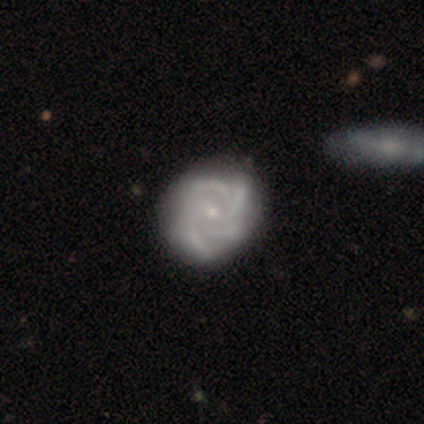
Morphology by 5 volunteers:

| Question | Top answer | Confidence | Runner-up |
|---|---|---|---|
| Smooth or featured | featured or disk | 100% | — |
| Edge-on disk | no | 100% | — |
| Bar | no | 80% | strong (20%) |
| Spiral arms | yes | 100% | — |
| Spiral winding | tight | 60% | medium (40%) |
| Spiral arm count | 4 | 80% | can't tell (20%) |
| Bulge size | small | 60% | moderate (40%) |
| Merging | none | 60% | minor disturbance (20%) |